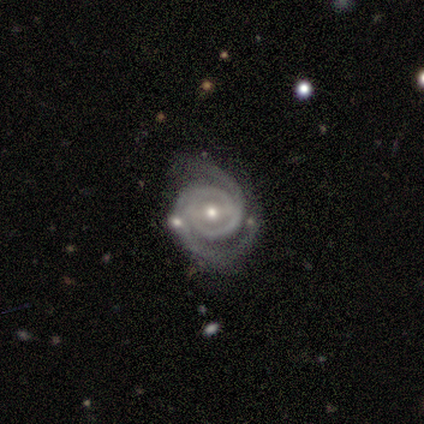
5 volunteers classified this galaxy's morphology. Overall: featured or disk (100%). Edge-on disk: no (100%). Bar: weak (80%). Spiral arms: yes (100%). Spiral arm count: 2 (100%). Spiral winding: medium (60%; tight 40%). Bulge size: small (80%). Merging: none (80%).